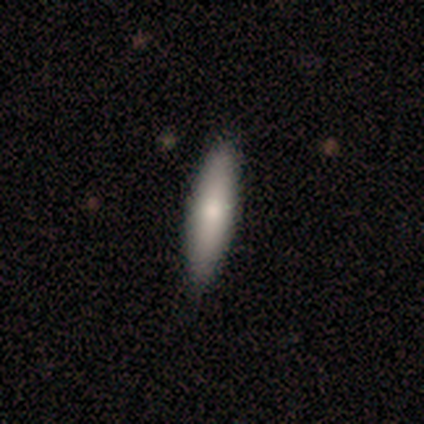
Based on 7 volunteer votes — Smooth or featured? 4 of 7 (57%) said smooth. How rounded? 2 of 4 (50%, tied with cigar-shaped) said in between. Merging? 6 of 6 (100%) said none.